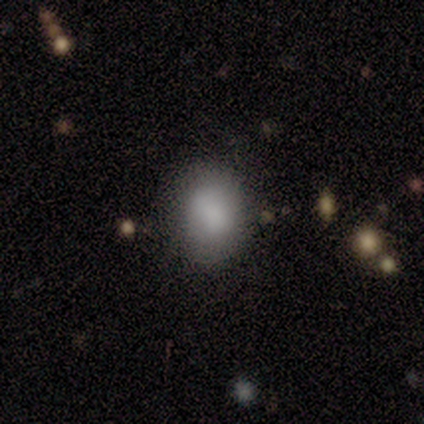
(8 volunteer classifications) Morphology: type=smooth (62%); roundness=in between (60%); merging=none (67%).